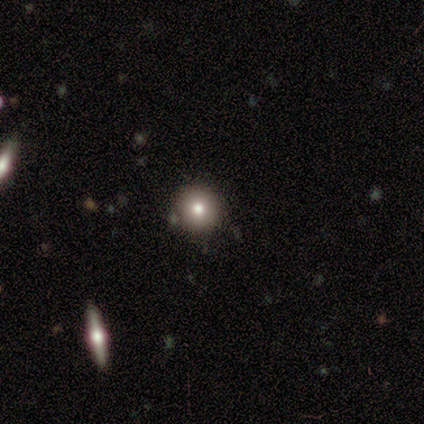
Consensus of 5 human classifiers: A smooth galaxy with no disk features (80%) that is round (100%). Merging: none (100%).